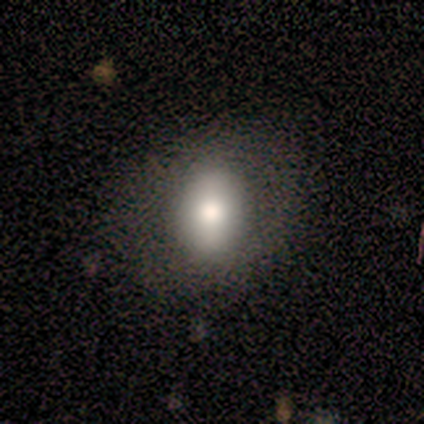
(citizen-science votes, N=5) Smooth or featured?
  - smooth: 80% *
  - featured or disk: 20%
  - star or artifact: 0%
How rounded?
  - in between: 75% *
  - round: 25%
  - cigar-shaped: 0%
Merging?
  - none: 80% *
  - minor disturbance: 20%
  - major disturbance: 0%
  - merger: 0%